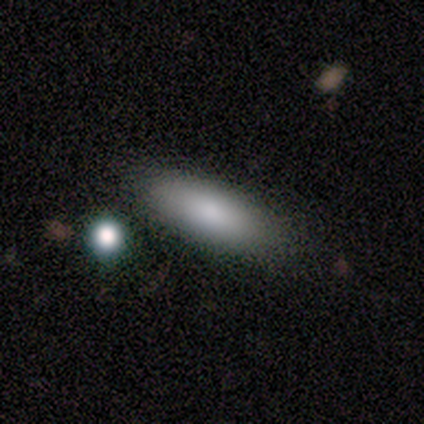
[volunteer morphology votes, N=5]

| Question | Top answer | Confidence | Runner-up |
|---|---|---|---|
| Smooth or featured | smooth | 80% | star or artifact (20%) |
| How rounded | in between | 75% | cigar-shaped (25%) |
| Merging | none | 50% | tied: major disturbance (50%) |